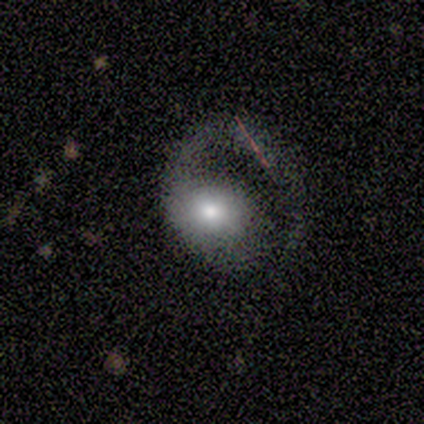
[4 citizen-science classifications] This is likely a featured or disk galaxy (75%). It is clearly not viewed edge-on (100%). Bar: likely no (67%). Spiral arm pattern: clearly yes (100%). Spiral arm count: clearly 1 (100%). Spiral winding: likely loose (67%). Central bulge: likely moderate (67%). Merging: likely major disturbance (75%).